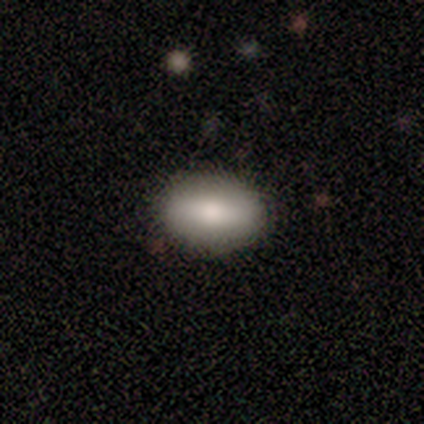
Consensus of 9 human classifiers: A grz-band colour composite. It shows a smooth galaxy with no disk features (89%) that is in between round and cigar-shaped (88%). Merging: none (89%).